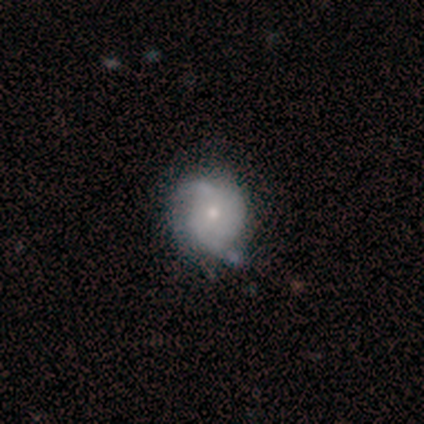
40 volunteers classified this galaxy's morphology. Q: Smooth or featured?
A: featured or disk (68%); runner-up: smooth (28%)
Q: Edge-on disk?
A: no (100%)
Q: Bar?
A: no (78%); runner-up: weak (22%)
Q: Spiral arms?
A: yes (85%); runner-up: no (15%)
Q: Spiral winding?
A: medium (39%); runner-up: tight (35%)
Q: Spiral arm count?
A: 2 (61%); runner-up: can't tell (30%)
Q: Bulge size?
A: small (67%); runner-up: moderate (30%)
Q: Merging?
A: none (55%); runner-up: minor disturbance (34%)